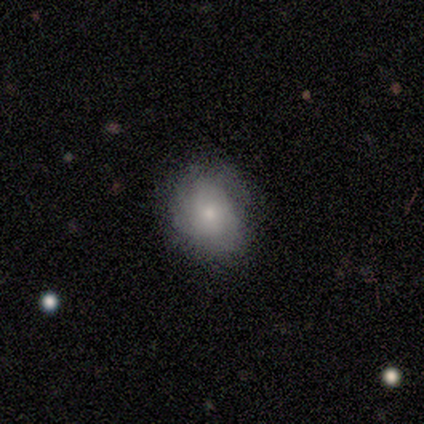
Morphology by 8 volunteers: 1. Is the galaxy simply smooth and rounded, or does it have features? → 75% smooth, 25% featured or disk, 0% star or artifact.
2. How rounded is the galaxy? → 67% round, 33% in between, 0% cigar-shaped.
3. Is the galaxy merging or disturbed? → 88% none, 12% minor disturbance, 0% major disturbance, 0% merger.